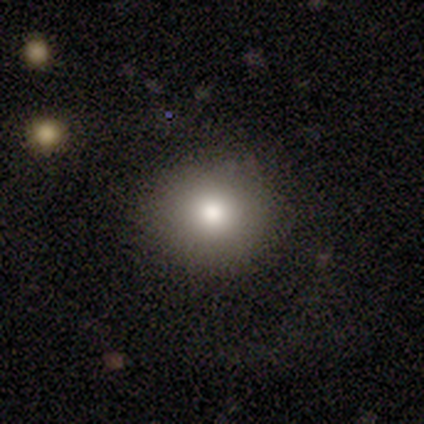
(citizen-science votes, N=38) Morphology: type=smooth (87%); roundness=round (88%); merging=none (92%).